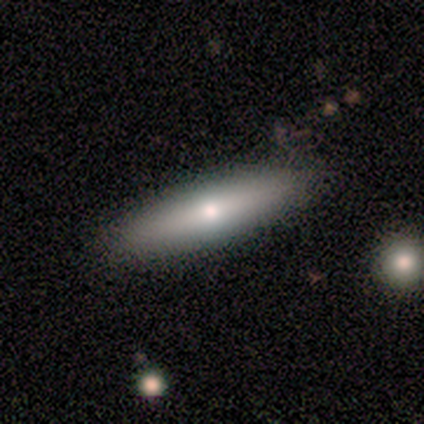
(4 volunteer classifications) Q: Smooth or featured?
A: smooth (75%); runner-up: featured or disk (25%)
Q: How rounded?
A: cigar-shaped (100%)
Q: Merging?
A: none (100%)